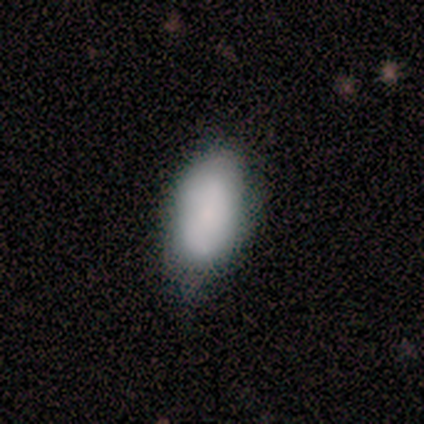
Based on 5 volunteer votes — Morphology: type=smooth (60%); roundness=in between (100%); merging=none (60%).